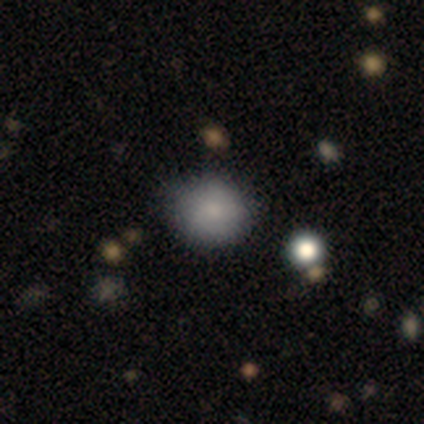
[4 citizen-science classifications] smooth 100%, featured or disk 0%, star or artifact 0%. Down the decision tree: how rounded — round (100%); merging — none (100%).